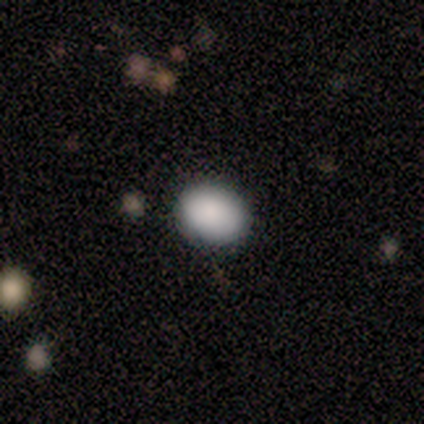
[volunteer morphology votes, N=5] Volunteers were most divided on "how rounded": in between: 80%, round: 20%, cigar-shaped: 0%. More confident: smooth or featured — smooth (100%); merging — none (100%).